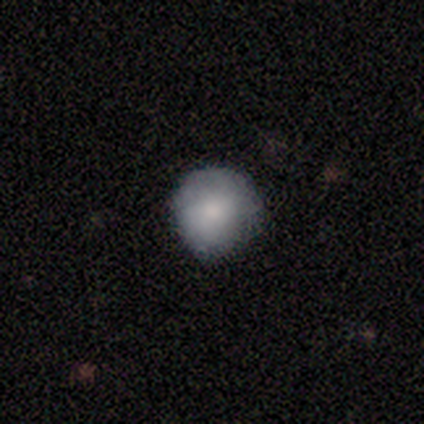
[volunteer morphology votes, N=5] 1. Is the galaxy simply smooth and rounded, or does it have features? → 60% smooth, 40% featured or disk, 0% star or artifact.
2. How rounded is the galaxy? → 100% round, 0% in between, 0% cigar-shaped.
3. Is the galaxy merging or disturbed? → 60% none, 40% minor disturbance, 0% major disturbance, 0% merger.